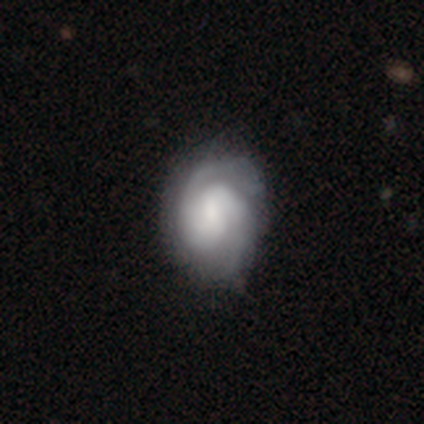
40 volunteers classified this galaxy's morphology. Overall: featured or disk (65%; smooth 30%). Edge-on disk: no (100%). Bar: no (54%; weak 38%). Spiral arms: yes (96%). Spiral arm count: 2 (88%). Spiral winding: tight (56%; medium 36%). Bulge size: moderate (42%; small 23%). Merging: none (74%).